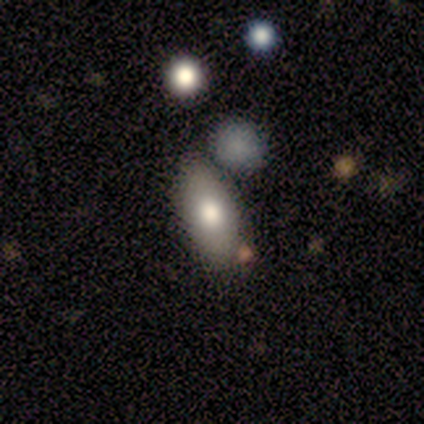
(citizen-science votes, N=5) Overall: smooth (100%). How rounded: in between (100%). Merging: none (80%).